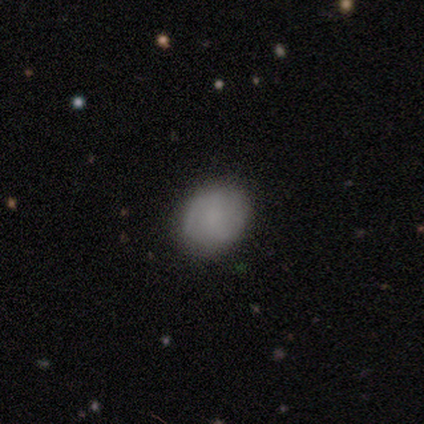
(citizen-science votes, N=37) smooth_or_featured: smooth (p=0.68) [alt: featured or disk p=0.24]
how_rounded: round (p=0.64) [alt: in between p=0.36]
merging: none (p=0.91) [alt: minor disturbance p=0.09]